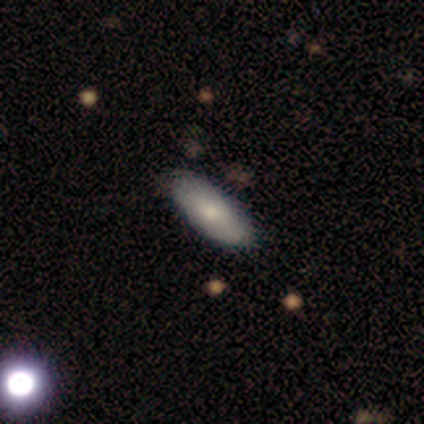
Morphology: type=smooth (60%); roundness=in between (100%); merging=none (100%).